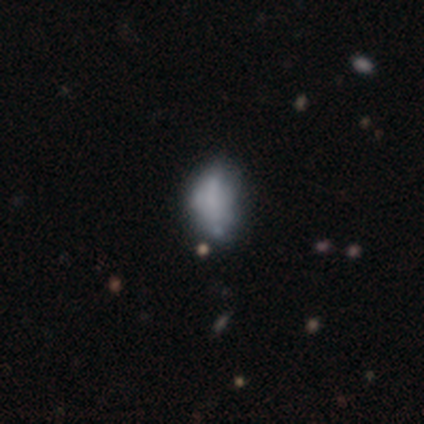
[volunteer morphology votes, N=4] A featured or disk galaxy (50%) with no bar (100%), no spiral arms (100%) and no central bulge (100%).

Vote fractions:
- Smooth or featured? featured or disk: 50% / smooth: 25% / star or artifact: 25%
- Edge-on disk? no: 100% / yes: 0%
- Bar? no: 100% / strong: 0% / weak: 0%
- Spiral arms? no: 100% / yes: 0%
- Bulge size? none: 100% / dominant: 0% / large: 0% / moderate: 0% / small: 0%
- Merging? none: 100% / minor disturbance: 0% / major disturbance: 0% / merger: 0%